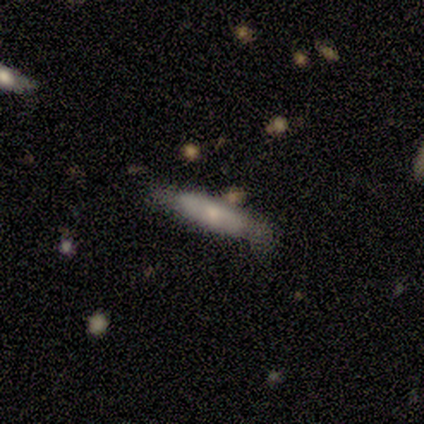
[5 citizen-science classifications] Smooth or featured? featured or disk (80%)
Edge-on disk? yes (100%)
Edge-on bulge? rounded (100%)
Merging? none (60%)